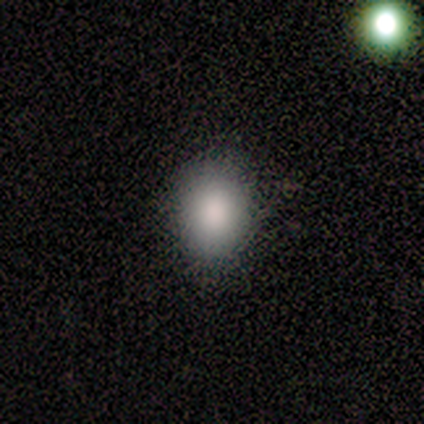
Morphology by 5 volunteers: Smooth or featured: smooth — 100%
How rounded: in between — 80% (round — 20%)
Merging: none — 60% (minor disturbance — 40%)